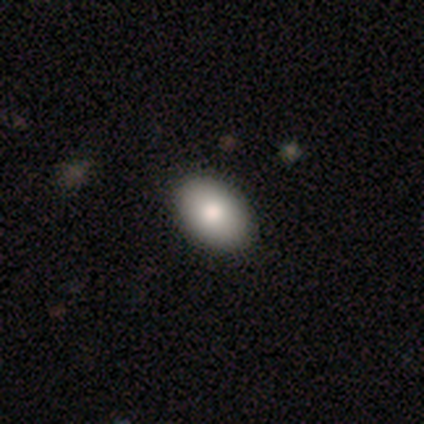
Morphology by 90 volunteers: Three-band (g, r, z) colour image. It shows a smooth galaxy with no disk features (86%) that is in between round and cigar-shaped (90%). Merging: none (92%).